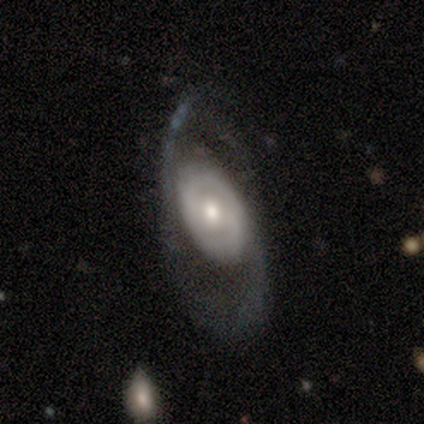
Smooth or featured?
  - featured or disk: 75% *
  - smooth: 25%
  - star or artifact: 0%
Edge-on disk?
  - no: 100% *
  - yes: 0%
Bar?
  - no: 67% *
  - strong: 33%
  - weak: 0%
Spiral arms?
  - no: 67% *
  - yes: 33%
Bulge size?
  - moderate: 67% *
  - large: 33%
  - dominant: 0%
  - small: 0%
  - none: 0%
Merging?
  - none: 50% *
  - minor disturbance: 25%
  - major disturbance: 25%
  - merger: 0%